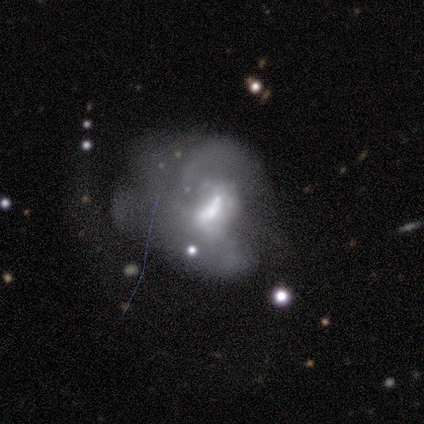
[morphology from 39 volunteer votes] Smooth or featured? 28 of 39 (72%) said featured or disk. Edge-on disk? 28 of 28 (100%) said no. Bar? 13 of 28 (46%) said no. Spiral arms? 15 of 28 (54%) said no. Bulge size? 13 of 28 (46%) said moderate. Merging? 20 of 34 (59%) said major disturbance.